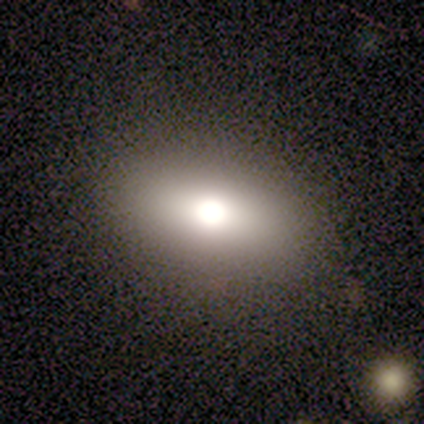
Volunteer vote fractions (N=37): smooth_or_featured: smooth (p=0.76) [alt: star or artifact p=0.14]
how_rounded: in between (p=0.89) [alt: round p=0.07]
merging: none (p=0.81) [alt: major disturbance p=0.09]